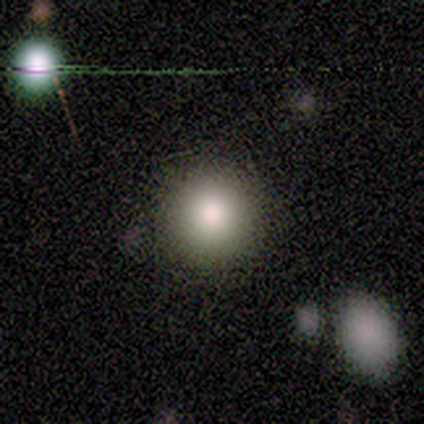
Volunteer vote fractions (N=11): Smooth or featured: smooth — 64% (featured or disk — 18%)
How rounded: round — 100%
Merging: none — 67% (minor disturbance — 11%)